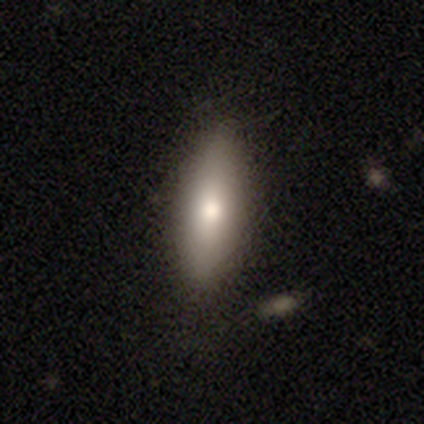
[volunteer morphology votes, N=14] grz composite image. It shows a smooth galaxy with no disk features (79%) that is in between round and cigar-shaped (64%). Merging: none (100%).